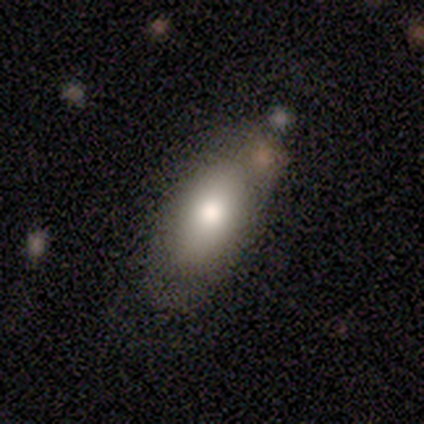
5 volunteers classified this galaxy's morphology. This is clearly a smooth galaxy (80%). How rounded: clearly in between (100%). Merging: clearly none (100%).